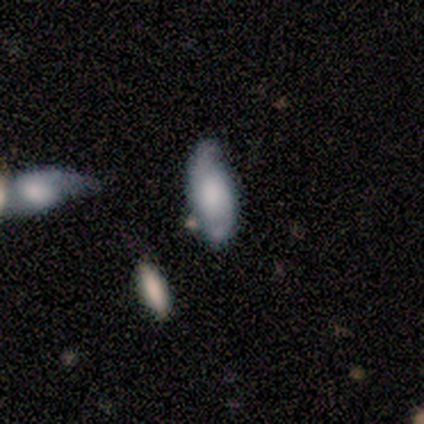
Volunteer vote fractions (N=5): smooth-or-featured: smooth: 60% | featured or disk: 40% | star or artifact: 0%
  how-rounded: round: 33% (tied) | in between: 33% (tied) | cigar-shaped: 33% (tied)
  merging: none: 80% | minor disturbance: 20% | major disturbance: 0% | merger: 0%